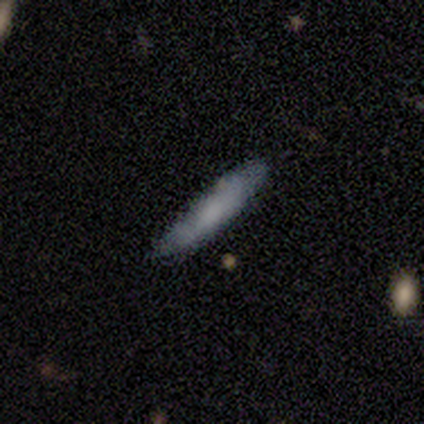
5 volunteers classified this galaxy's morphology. Volunteers were most divided on "edge-on bulge" (2-way tie): boxy: 50%, rounded: 50%, none: 0%. More confident: merging — none (80%); edge-on disk — yes (67%); smooth or featured — featured or disk (60%).